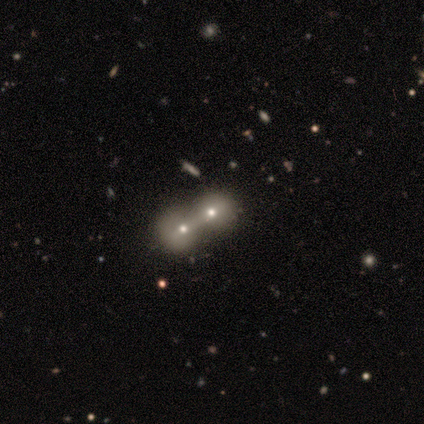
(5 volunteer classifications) This is marginally a featured or disk galaxy (40%, tied with star or artifact). It is clearly not viewed edge-on (100%). Bar: possibly weak (50%, tied with no). Spiral arm pattern: clearly no (100%). Central bulge: possibly moderate (50%, tied with small). Merging: clearly merger (100%).